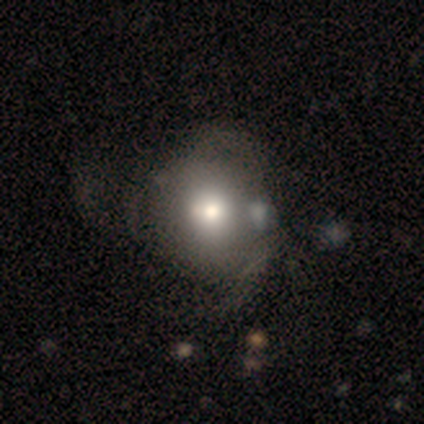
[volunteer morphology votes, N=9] A smooth galaxy with no disk features (44%) that is round (75%). Merging: none (71%).